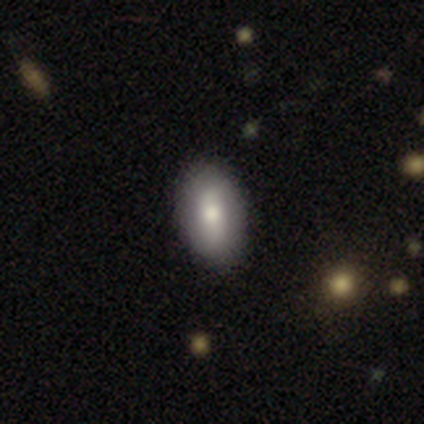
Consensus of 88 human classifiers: Smooth or featured: smooth — 70% (featured or disk — 23%)
How rounded: in between — 87% (cigar-shaped — 8%)
Merging: none — 80% (minor disturbance — 15%)